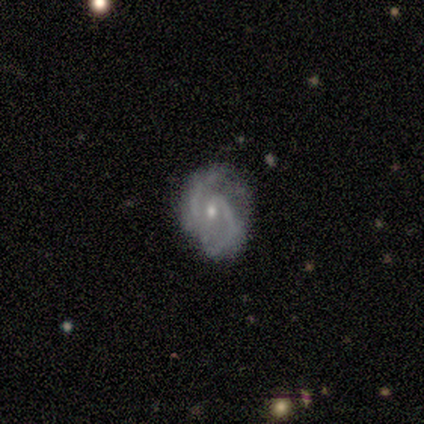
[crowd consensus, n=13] Smooth or featured?
  - featured or disk: 92% *
  - smooth: 8%
  - star or artifact: 0%
Edge-on disk?
  - no: 100% *
  - yes: 0%
Bar?
  - weak: 67% *
  - no: 33%
  - strong: 0%
Spiral arms?
  - yes: 92% *
  - no: 8%
Spiral winding?
  - medium: 82% *
  - tight: 18%
  - loose: 0%
Spiral arm count?
  - 2: 91% *
  - 4: 9%
  - 1: 0%
  - 3: 0%
  - more than 4: 0%
  - can't tell: 0%
Bulge size?
  - small: 83% *
  - moderate: 17%
  - dominant: 0%
  - large: 0%
  - none: 0%
Merging?
  - none: 62% *
  - minor disturbance: 38%
  - major disturbance: 0%
  - merger: 0%